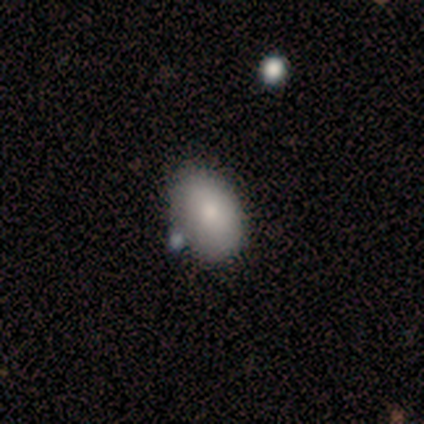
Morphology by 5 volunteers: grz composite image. It shows a smooth galaxy with no disk features (100%) that is in between round and cigar-shaped (100%). Merging: none (100%).